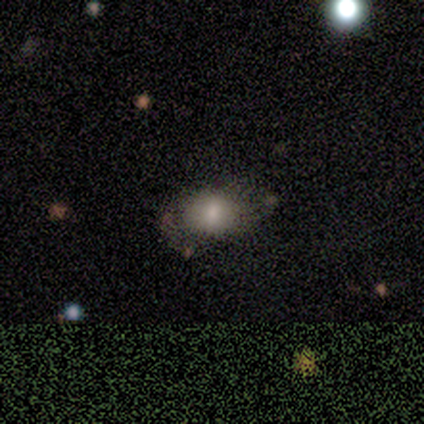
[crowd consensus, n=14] smooth-or-featured: smooth: 79% | featured or disk: 14% | star or artifact: 7%
  how-rounded: in between: 82% | round: 18% | cigar-shaped: 0%
  merging: none: 62% | minor disturbance: 31% | major disturbance: 8% | merger: 0%